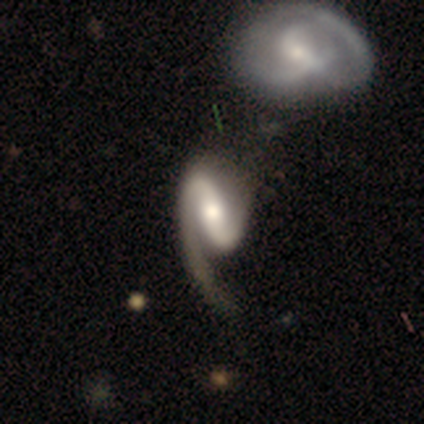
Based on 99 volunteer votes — Smooth or featured: featured or disk — 89% (smooth — 6%)
Edge-on disk: no — 98% (yes — 2%)
Bar: strong — 69% (weak — 17%)
Spiral arms: yes — 98% (no — 2%)
Spiral winding: loose — 49% (medium — 33%)
Spiral arm count: 2 — 62% (1 — 36%)
Bulge size: moderate — 57% (large — 22%)
Merging: merger — 38% (major disturbance — 22%)